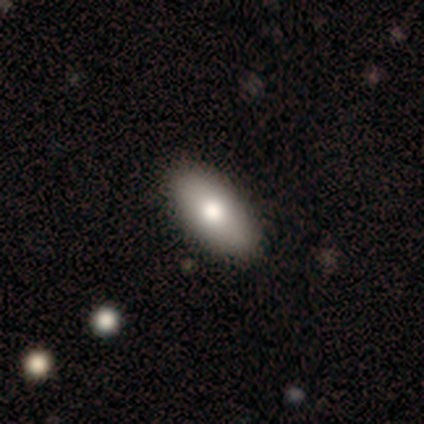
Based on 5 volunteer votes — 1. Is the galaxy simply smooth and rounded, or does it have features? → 60% smooth, 40% featured or disk, 0% star or artifact.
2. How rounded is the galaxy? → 100% in between, 0% round, 0% cigar-shaped.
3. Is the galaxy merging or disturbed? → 100% none, 0% minor disturbance, 0% major disturbance, 0% merger.